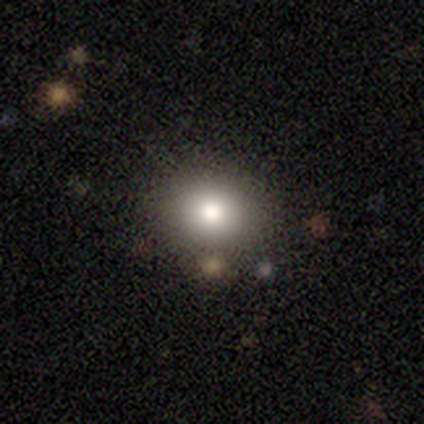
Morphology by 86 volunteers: This is likely a smooth galaxy (76%). How rounded: likely round (78%). Merging: clearly none (86%).